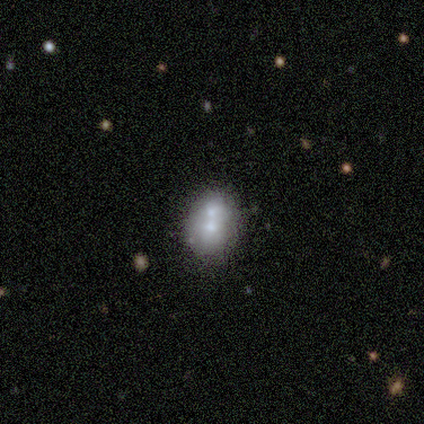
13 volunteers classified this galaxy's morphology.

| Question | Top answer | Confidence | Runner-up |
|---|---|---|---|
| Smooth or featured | smooth | 54% | featured or disk (38%) |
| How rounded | in between | 71% | round (29%) |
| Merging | merger | 58% | none (25%) |